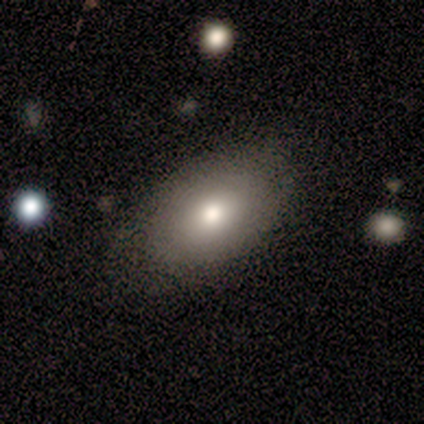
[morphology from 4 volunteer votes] A smooth galaxy with no disk features (100%) that is in between round and cigar-shaped (100%). Merging: none (100%).